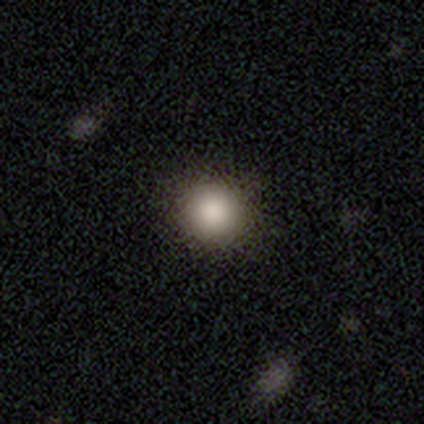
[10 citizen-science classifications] This appears to be a smooth galaxy with no disk features (90%) that is round (89%). Merging: none (100%).